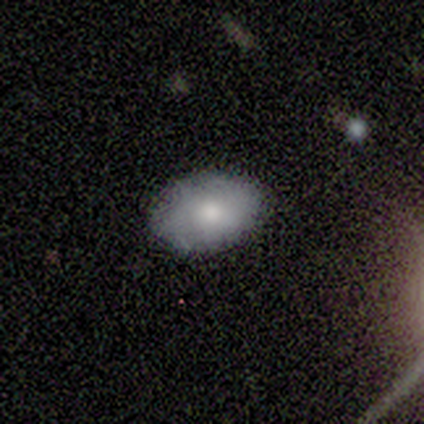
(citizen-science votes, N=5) smooth_or_featured: smooth (p=0.60) [alt: featured or disk p=0.40]
how_rounded: in between (p=1.00)
merging: none (p=0.80) [alt: minor disturbance p=0.20]